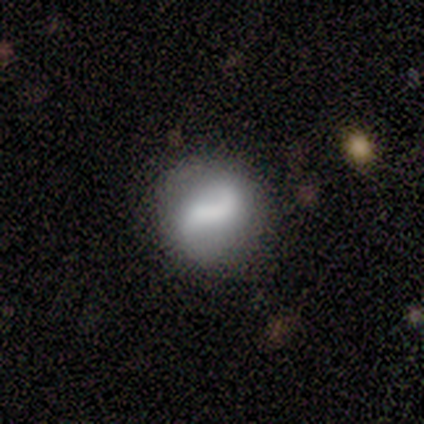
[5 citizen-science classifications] This is clearly a featured or disk galaxy (80%). It is clearly not viewed edge-on (100%). Bar: possibly strong (50%). Spiral arm pattern: likely yes (75%). Spiral arm count: likely 2 (67%). Spiral winding: likely loose (67%). Central bulge: possibly small (50%). Merging: clearly none (80%).